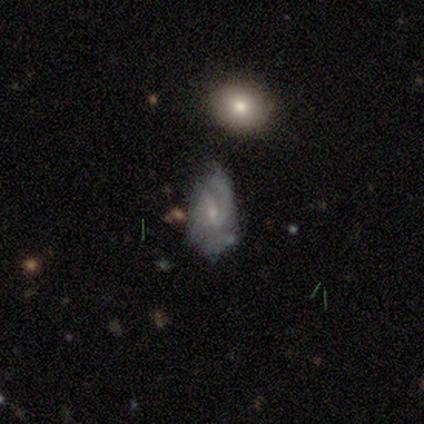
Smooth or featured: featured or disk — 80% (smooth — 20%)
Edge-on disk: no — 100%
Bar: weak — 75% (strong — 25%)
Spiral arms: yes — 100%
Spiral winding: medium — 50% (tight — 25%)
Spiral arm count: 1 — 50% (2 — 25%)
Bulge size: small — 100%
Merging: none — 40% (tied with major disturbance — 40%)